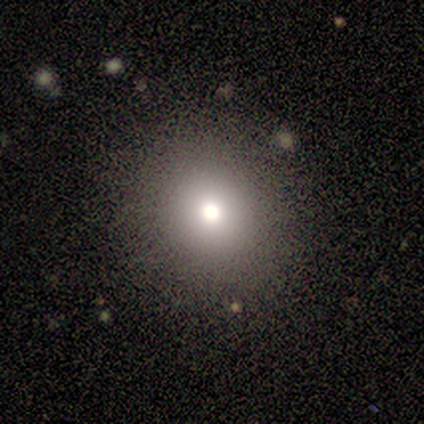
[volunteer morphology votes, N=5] Overall: smooth (80%). How rounded: round (100%). Merging: none (100%).